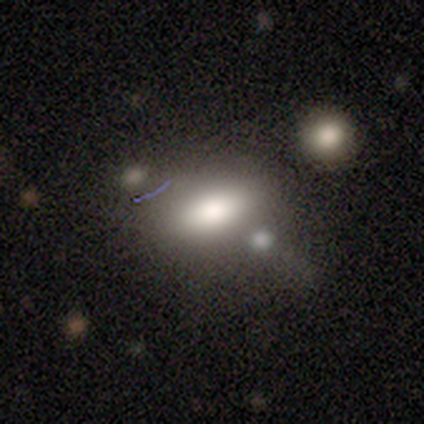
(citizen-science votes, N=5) A smooth galaxy with no disk features (60%) that is in between round and cigar-shaped (100%). Merging: none (50%, tied with merger).